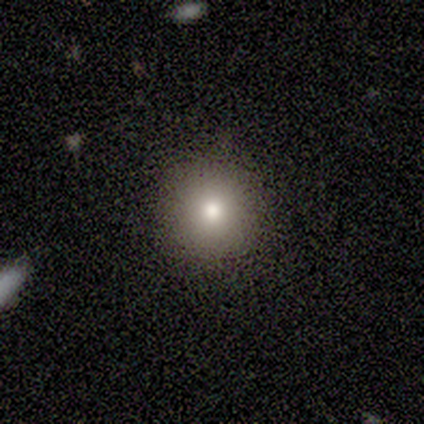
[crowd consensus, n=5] A smooth galaxy with no disk features (80%) that is round (100%).

Vote fractions:
- Smooth or featured? smooth: 80% / star or artifact: 20% / featured or disk: 0%
- How rounded? round: 100% / in between: 0% / cigar-shaped: 0%
- Merging? none: 100% / minor disturbance: 0% / major disturbance: 0% / merger: 0%